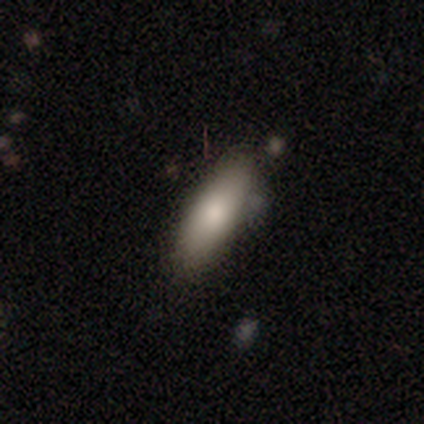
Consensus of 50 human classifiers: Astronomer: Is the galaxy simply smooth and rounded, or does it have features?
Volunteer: smooth — 82%.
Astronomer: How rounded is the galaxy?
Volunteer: in between — 59% (runner-up: cigar-shaped, 39%).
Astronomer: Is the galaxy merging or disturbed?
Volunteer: none — 77%.